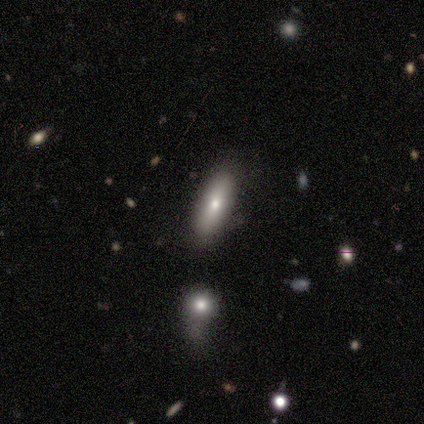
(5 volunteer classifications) This is clearly a smooth galaxy (80%). How rounded: likely in between (75%). Merging: clearly none (100%).